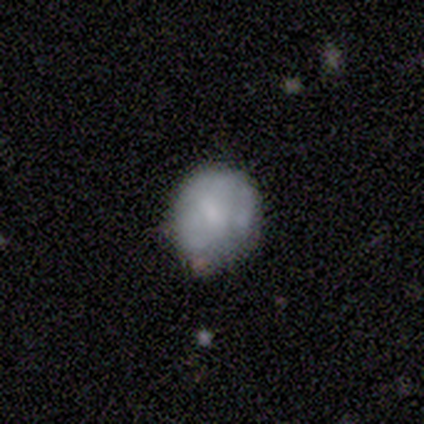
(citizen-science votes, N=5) Smooth or featured: smooth — 100%
How rounded: round — 80% (in between — 20%)
Merging: minor disturbance — 80% (none — 20%)